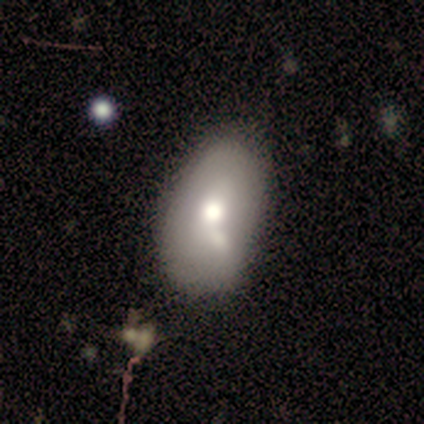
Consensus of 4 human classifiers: A smooth galaxy with no disk features (75%) that is in between round and cigar-shaped (100%).

Vote fractions:
- Smooth or featured? smooth: 75% / featured or disk: 25% / star or artifact: 0%
- How rounded? in between: 100% / round: 0% / cigar-shaped: 0%
- Merging? minor disturbance: 50% / none: 25% / merger: 25% / major disturbance: 0%